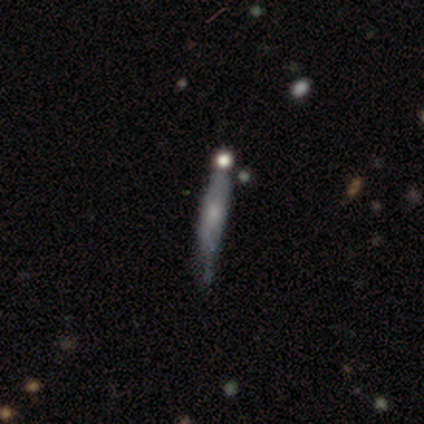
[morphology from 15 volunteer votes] type=featured or disk (67%); edge-on=yes (70%); edge-on bulge=none (57%); merging=none (47%).